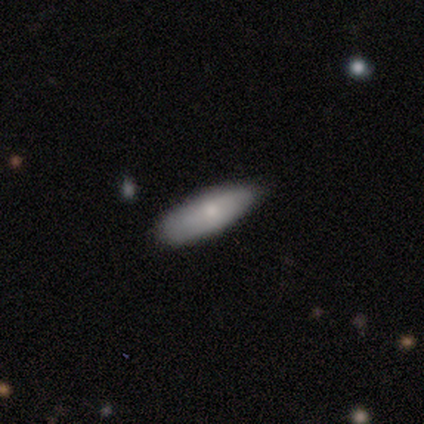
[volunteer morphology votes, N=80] A smooth galaxy with no disk features (79%) that is in between round and cigar-shaped (56%). Merging: none (39%).